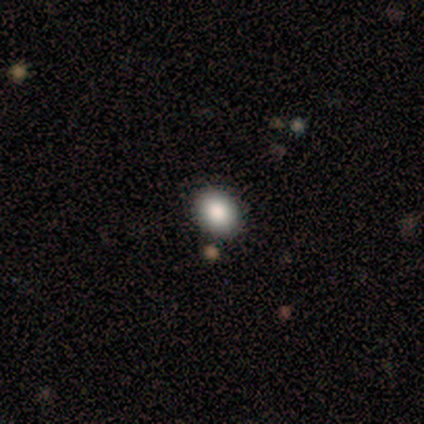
Smooth or featured? smooth (82%)
How rounded? in between (78%)
Merging? none (89%)